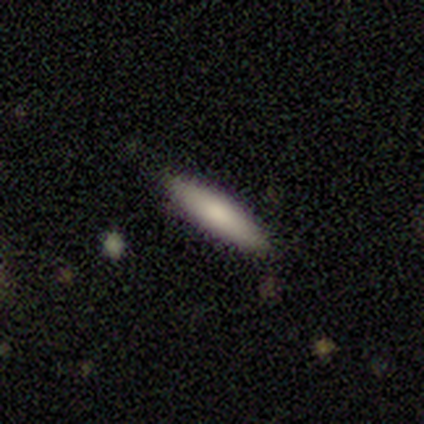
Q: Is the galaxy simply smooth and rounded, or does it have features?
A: smooth — 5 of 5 (100%).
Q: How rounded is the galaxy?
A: cigar-shaped — 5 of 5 (100%).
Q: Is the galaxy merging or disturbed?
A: none — 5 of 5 (100%).